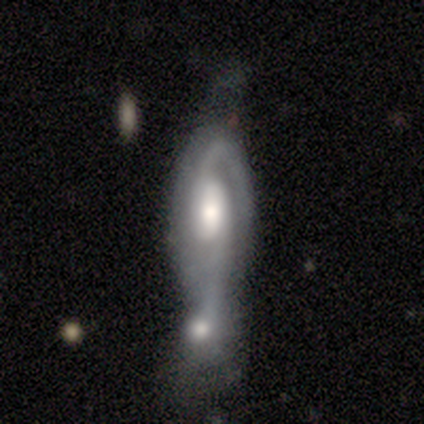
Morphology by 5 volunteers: A featured or disk galaxy (80%) with no bar (100%), 2 (75%) medium (75%) spiral arms (100%) and a moderate central bulge (75%).

Vote fractions:
- Smooth or featured? featured or disk: 80% / smooth: 20% / star or artifact: 0%
- Edge-on disk? no: 100% / yes: 0%
- Bar? no: 100% / strong: 0% / weak: 0%
- Spiral arms? yes: 100% / no: 0%
- Spiral winding? medium: 75% / tight: 25% / loose: 0%
- Spiral arm count? 2: 75% / 1: 25% / 3: 0% / 4: 0% / more than 4: 0% / can't tell: 0%
- Bulge size? moderate: 75% / large: 25% / dominant: 0% / small: 0% / none: 0%
- Merging? merger: 100% / none: 0% / minor disturbance: 0% / major disturbance: 0%